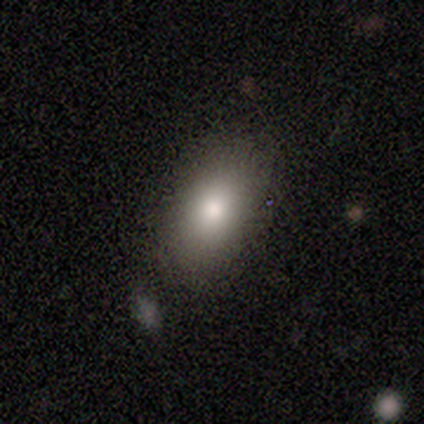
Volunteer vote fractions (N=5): smooth_or_featured: smooth (p=1.00)
how_rounded: in between (p=1.00)
merging: none (p=1.00)